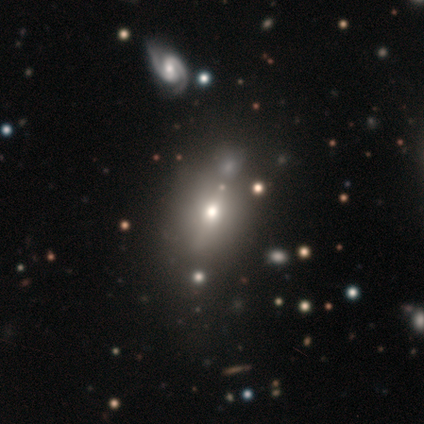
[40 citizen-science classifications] Morphology: type=smooth (68%); roundness=in between (70%); merging=none (58%).